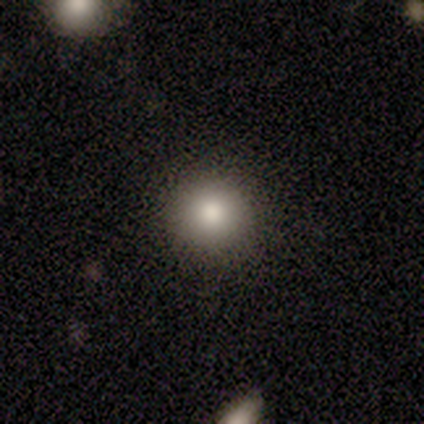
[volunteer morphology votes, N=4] Smooth or featured? 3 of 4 (75%) said smooth. How rounded? 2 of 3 (67%) said round. Merging? 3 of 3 (100%) said none.